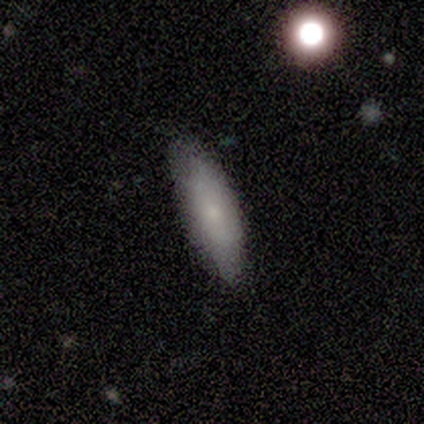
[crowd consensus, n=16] Volunteers were most divided on "how rounded": in between: 56%, cigar-shaped: 44%, round: 0%. More confident: merging — none (80%); smooth or featured — smooth (56%).